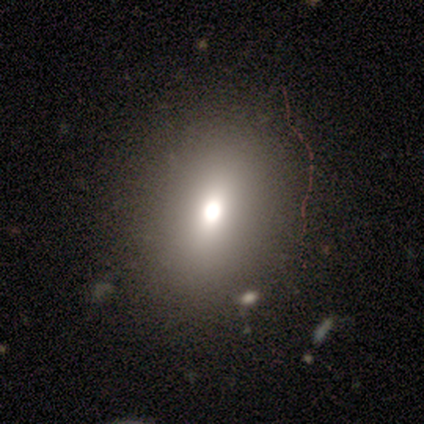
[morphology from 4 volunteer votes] Smooth or featured: smooth — 50% (tied with star or artifact — 50%)
How rounded: round — 50% (tied with in between — 50%)
Merging: none — 50% (tied with major disturbance — 50%)